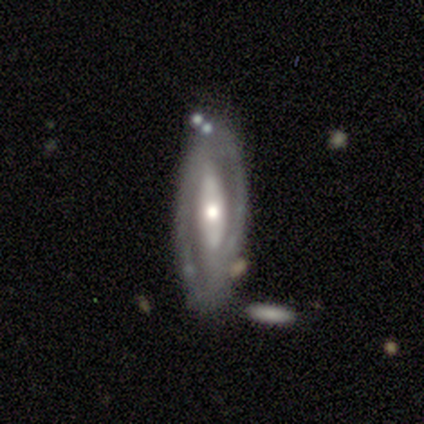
Q: Smooth or featured?
A: featured or disk (87%); runner-up: smooth (13%)
Q: Edge-on disk?
A: no (88%); runner-up: yes (12%)
Q: Bar?
A: strong (48%); runner-up: no (41%)
Q: Spiral arms?
A: yes (72%); runner-up: no (28%)
Q: Spiral winding?
A: medium (48%); runner-up: tight (38%)
Q: Spiral arm count?
A: 2 (76%); runner-up: can't tell (14%)
Q: Bulge size?
A: moderate (66%); runner-up: small (21%)
Q: Merging?
A: none (63%); runner-up: minor disturbance (24%)